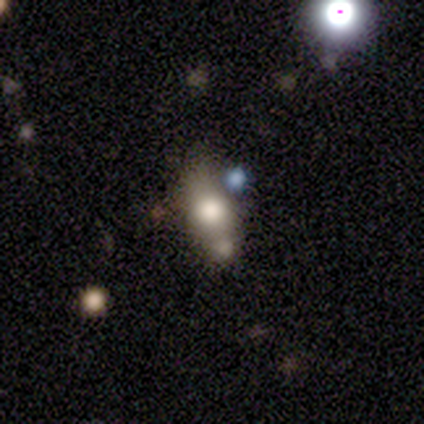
smooth_or_featured: smooth (p=0.50) [tied with: featured or disk p=0.50]
how_rounded: in between (p=1.00)
merging: merger (p=1.00)